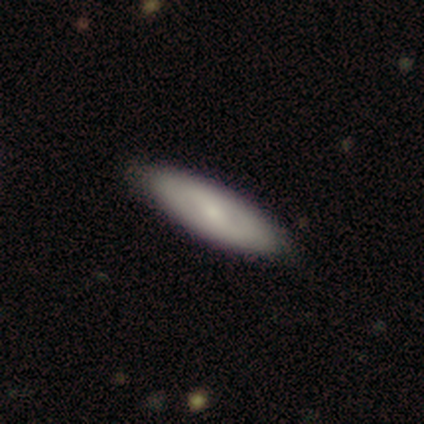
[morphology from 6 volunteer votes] Smooth or featured?
  - featured or disk: 67% *
  - smooth: 33%
  - star or artifact: 0%
Edge-on disk?
  - no: 100% *
  - yes: 0%
Bar?
  - no: 50% *
  - strong: 25%
  - weak: 25%
Spiral arms?
  - yes: 50% * (tied)
  - no: 50% * (tied)
Spiral winding?
  - tight: 50% * (tied)
  - medium: 50% * (tied)
  - loose: 0%
Spiral arm count?
  - 2: 50% * (tied)
  - can't tell: 50% * (tied)
  - 1: 0%
  - 3: 0%
  - 4: 0%
  - more than 4: 0%
Bulge size?
  - small: 50% *
  - moderate: 25%
  - none: 25%
  - dominant: 0%
  - large: 0%
Merging?
  - none: 100% *
  - minor disturbance: 0%
  - major disturbance: 0%
  - merger: 0%